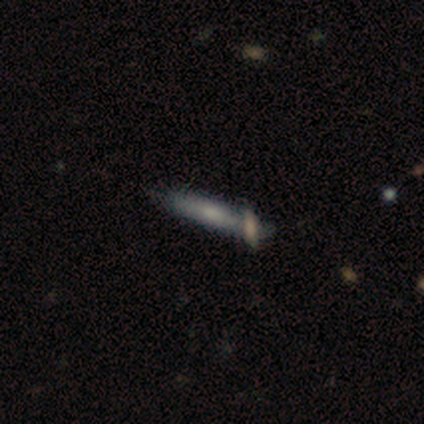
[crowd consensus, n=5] A smooth galaxy with no disk features (60%) that is cigar-shaped (100%).

Vote fractions:
- Smooth or featured? smooth: 60% / featured or disk: 40% / star or artifact: 0%
- How rounded? cigar-shaped: 100% / round: 0% / in between: 0%
- Merging? merger: 60% / none: 40% / minor disturbance: 0% / major disturbance: 0%